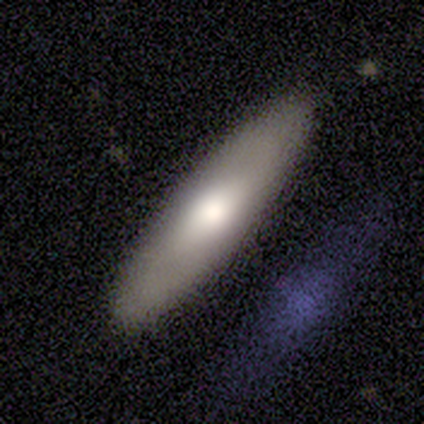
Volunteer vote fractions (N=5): A featured or disk galaxy (60%) viewed edge-on (67%) with a rounded central bulge (100%).

Vote fractions:
- Smooth or featured? featured or disk: 60% / smooth: 40% / star or artifact: 0%
- Edge-on disk? yes: 67% / no: 33%
- Edge-on bulge? rounded: 100% / boxy: 0% / none: 0%
- Merging? none: 80% / merger: 20% / minor disturbance: 0% / major disturbance: 0%